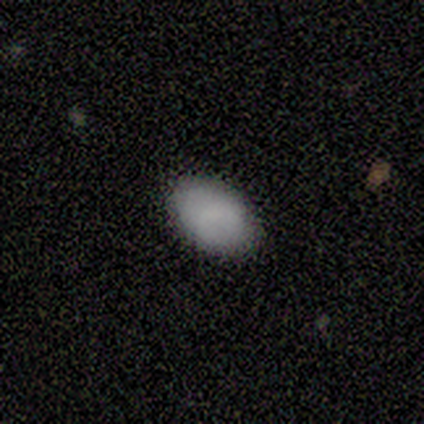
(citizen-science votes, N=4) This appears to be a smooth galaxy with no disk features (100%) that is in between round and cigar-shaped (100%). Merging: none (100%).